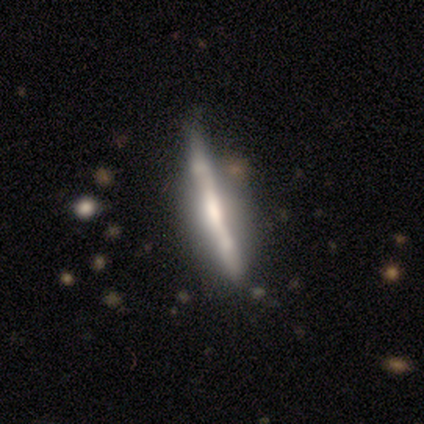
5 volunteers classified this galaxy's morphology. smooth-or-featured: featured or disk: 80% | smooth: 20% | star or artifact: 0%
  disk-edge-on: yes: 100% | no: 0%
    edge-on-bulge: none: 50% | boxy: 25% | rounded: 25%
  merging: none: 60% | major disturbance: 40% | minor disturbance: 0% | merger: 0%